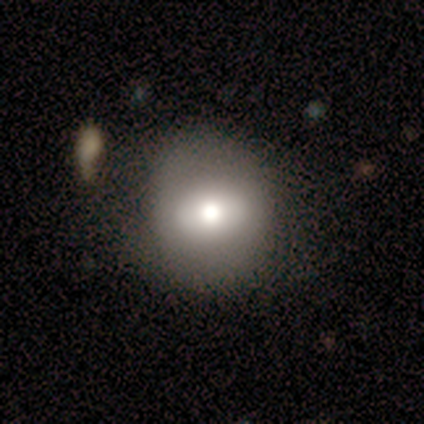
smooth-or-featured: smooth: 60% | featured or disk: 40% | star or artifact: 0%
  how-rounded: round: 67% | in between: 33% | cigar-shaped: 0%
  merging: none: 80% | minor disturbance: 20% | major disturbance: 0% | merger: 0%